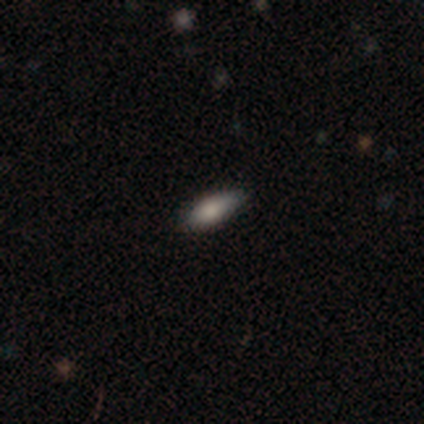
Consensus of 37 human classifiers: Overall: smooth (70%). How rounded: in between (81%). Merging: none (84%).